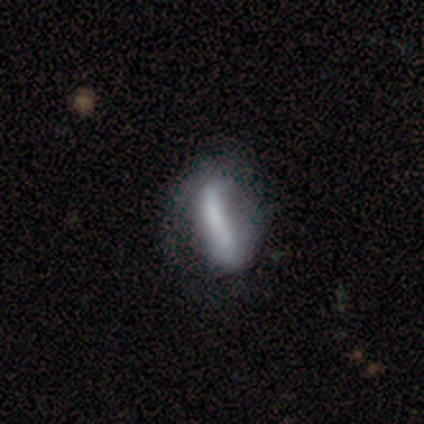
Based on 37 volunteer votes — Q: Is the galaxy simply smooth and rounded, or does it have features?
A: featured or disk — 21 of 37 (57%).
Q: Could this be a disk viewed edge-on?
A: no — 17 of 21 (81%).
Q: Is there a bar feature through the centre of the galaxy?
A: strong — 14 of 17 (82%).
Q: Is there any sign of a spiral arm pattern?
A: yes — 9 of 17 (53%).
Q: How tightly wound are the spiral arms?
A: tight — 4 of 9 (44%).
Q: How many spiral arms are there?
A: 2 — 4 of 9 (44%).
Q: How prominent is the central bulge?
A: none — 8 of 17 (47%).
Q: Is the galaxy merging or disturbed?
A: none — 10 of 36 (28%, tied with minor disturbance).